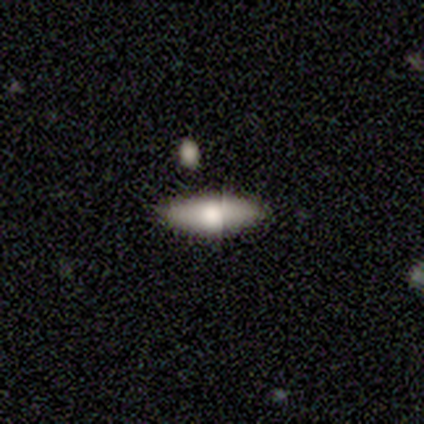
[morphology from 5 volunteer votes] type=smooth (60%); roundness=in between (100%); merging=none (80%).